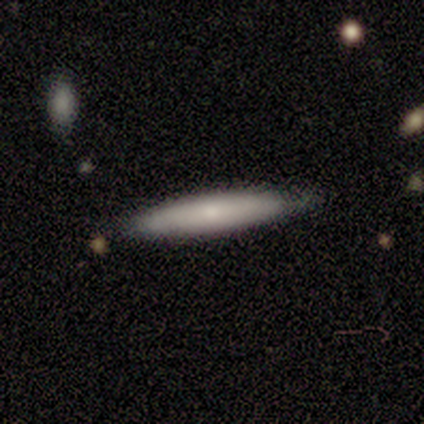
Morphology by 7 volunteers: Overall: smooth (86%). How rounded: cigar-shaped (83%). Merging: none (57%; minor disturbance 43%).